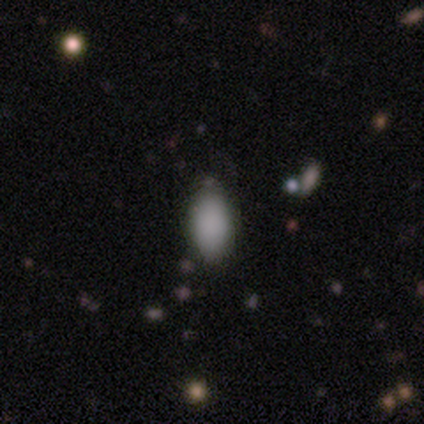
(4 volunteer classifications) smooth-or-featured: smooth: 100% | featured or disk: 0% | star or artifact: 0%
  how-rounded: in between: 75% | round: 25% | cigar-shaped: 0%
  merging: none: 75% | minor disturbance: 25% | major disturbance: 0% | merger: 0%